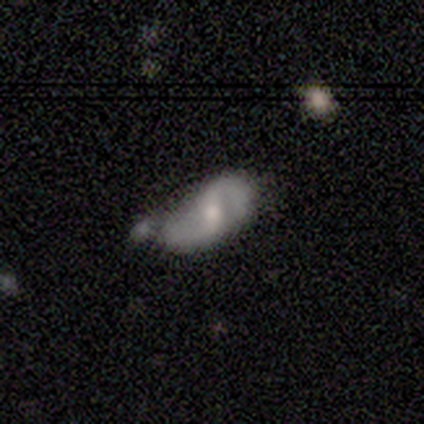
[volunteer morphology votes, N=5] type=featured or disk (80%); edge-on=no (100%); bar=weak (75%); spiral arms=yes (75%); winding=loose (67%); arm count=2 (100%); bulge=moderate (50%, tied with small); merging=minor disturbance (60%).